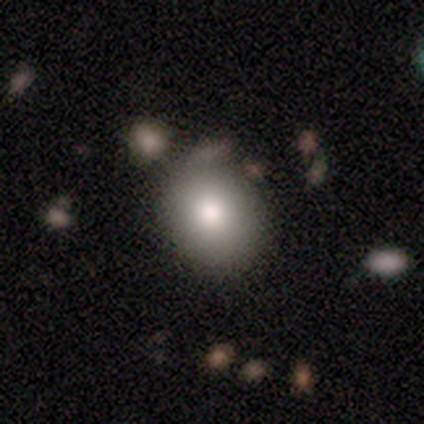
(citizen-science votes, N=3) Smooth or featured?
  - smooth: 100% *
  - featured or disk: 0%
  - star or artifact: 0%
How rounded?
  - round: 67% *
  - cigar-shaped: 33%
  - in between: 0%
Merging?
  - none: 33% * (tied)
  - minor disturbance: 33% * (tied)
  - major disturbance: 33% * (tied)
  - merger: 0%